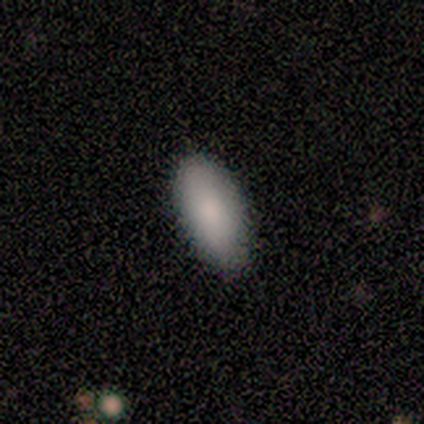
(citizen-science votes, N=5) Smooth or featured? smooth (80%)
How rounded? in between (100%)
Merging? none (100%)